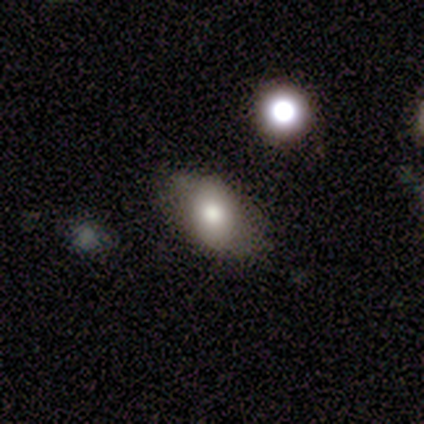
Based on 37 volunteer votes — smooth_or_featured: smooth (p=0.70) [alt: featured or disk p=0.24]
how_rounded: in between (p=0.92) [alt: round p=0.08]
merging: none (p=0.86) [alt: minor disturbance p=0.09]